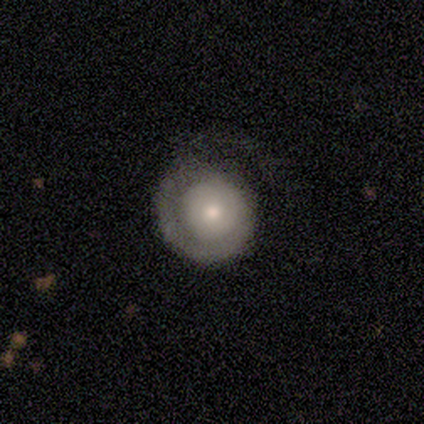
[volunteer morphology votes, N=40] Smooth or featured: featured or disk — 52% (smooth — 42%)
Edge-on disk: no — 100%
Bar: no — 95% (weak — 5%)
Spiral arms: yes — 81% (no — 19%)
Spiral winding: tight — 76% (medium — 18%)
Spiral arm count: 1 — 82% (can't tell — 18%)
Bulge size: moderate — 43% (small — 38%)
Merging: none — 42% (minor disturbance — 24%)